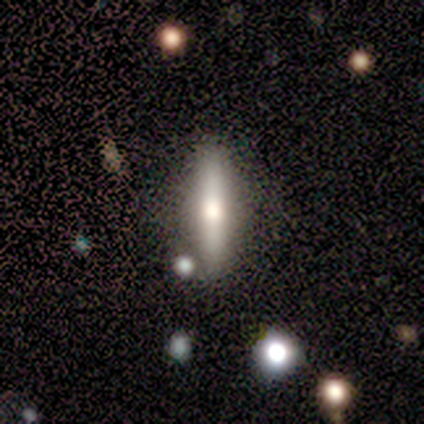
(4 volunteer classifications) Overall: featured or disk (50%, tied with star or artifact). Edge-on disk: yes (100%). Edge-on bulge: rounded (100%). Merging: none (100%).